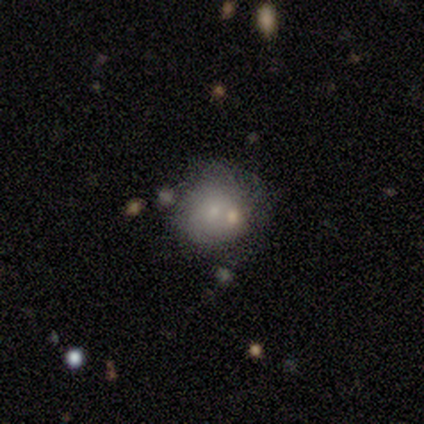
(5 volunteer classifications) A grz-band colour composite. It shows a smooth galaxy with no disk features (60%) that is round (100%). Merging: none (60%).